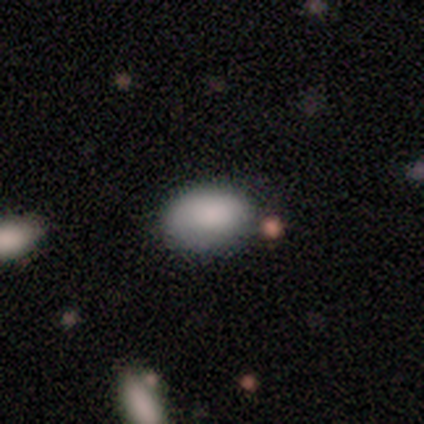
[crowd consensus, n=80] Smooth or featured?
  - smooth: 92% *
  - featured or disk: 8%
  - star or artifact: 0%
How rounded?
  - in between: 92% *
  - round: 8%
  - cigar-shaped: 0%
Merging?
  - none: 44% *
  - minor disturbance: 11%
  - merger: 5%
  - major disturbance: 2%